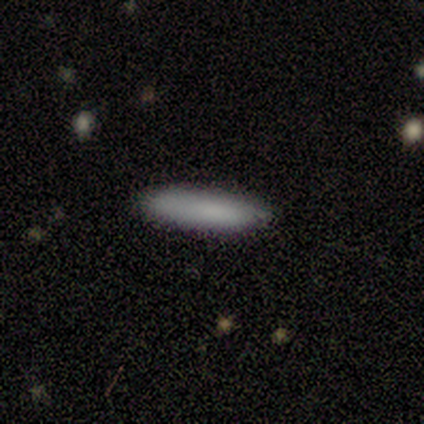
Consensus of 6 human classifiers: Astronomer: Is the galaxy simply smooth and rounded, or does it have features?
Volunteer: smooth — 100%.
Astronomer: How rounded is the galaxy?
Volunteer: cigar-shaped — 67%.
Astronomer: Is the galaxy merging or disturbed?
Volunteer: none — 100%.